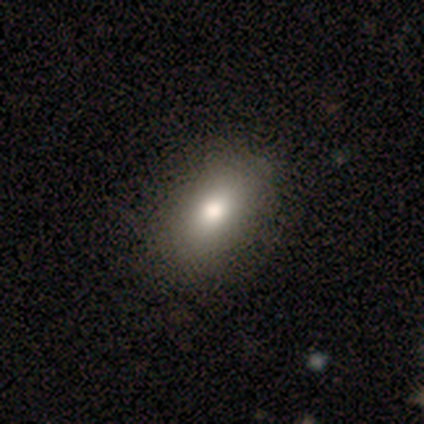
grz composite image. It shows a smooth galaxy with no disk features (93%) that is in between round and cigar-shaped (77%). Merging: none (85%).